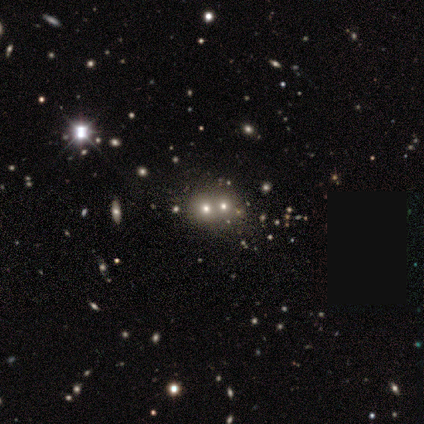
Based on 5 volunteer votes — Smooth or featured?
  - smooth: 80% *
  - star or artifact: 20%
  - featured or disk: 0%
How rounded?
  - round: 50% * (tied)
  - in between: 50% * (tied)
  - cigar-shaped: 0%
Merging?
  - merger: 75% *
  - minor disturbance: 25%
  - none: 0%
  - major disturbance: 0%